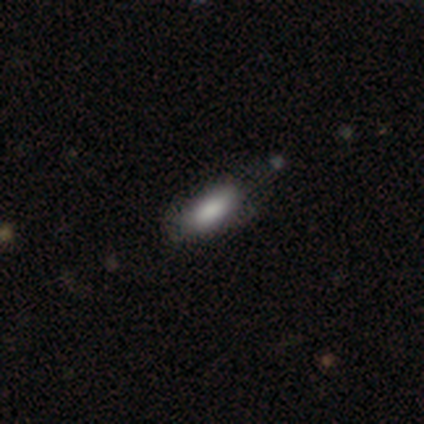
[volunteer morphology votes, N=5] type=smooth (80%); roundness=in between (75%); merging=none (100%).